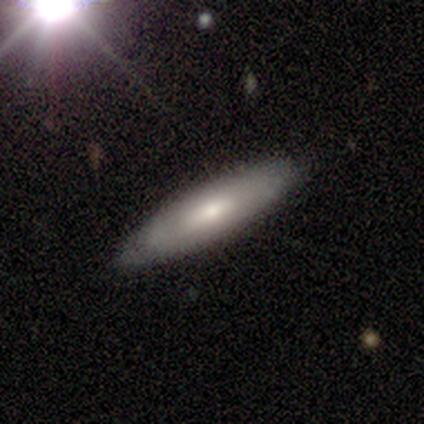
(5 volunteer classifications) Volunteers were most divided on "bar": no: 67%, strong: 33%, weak: 0%. More confident: spiral winding — tight (100%); spiral arm count — can't tell (100%); smooth or featured — featured or disk (80%); merging — none (80%); edge-on disk — no (75%); spiral arms — yes (67%); bulge size — moderate (67%).